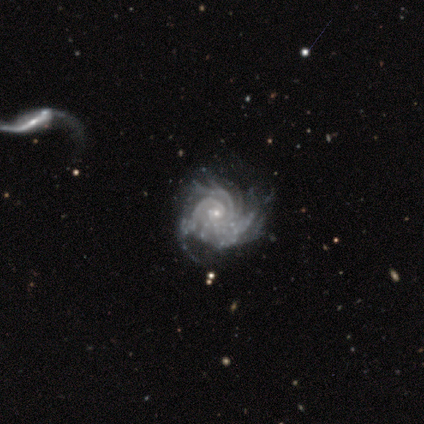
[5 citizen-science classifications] Smooth or featured? featured or disk (100%)
Edge-on disk? no (100%)
Bar? no (60%)
Spiral arms? yes (100%)
Spiral winding? tight (60%)
Spiral arm count? can't tell (60%)
Bulge size? small (80%)
Merging? none (40%, tied with major disturbance)